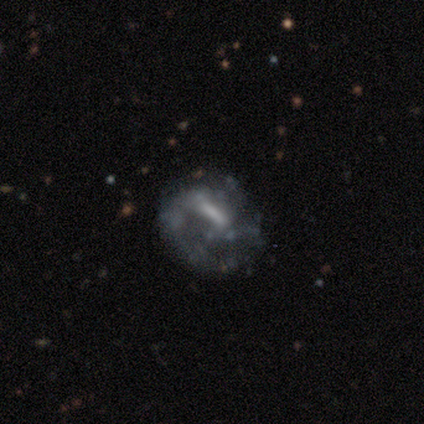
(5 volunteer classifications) smooth-or-featured: featured or disk: 80% | star or artifact: 20% | smooth: 0%
  disk-edge-on: no: 100% | yes: 0%
    bar: weak: 75% | strong: 25% | no: 0%
    has-spiral-arms: no: 75% | yes: 25%
    bulge-size: small: 50% | moderate: 25% | none: 25% | dominant: 0% | large: 0%
  merging: none: 50% | minor disturbance: 25% | major disturbance: 25% | merger: 0%